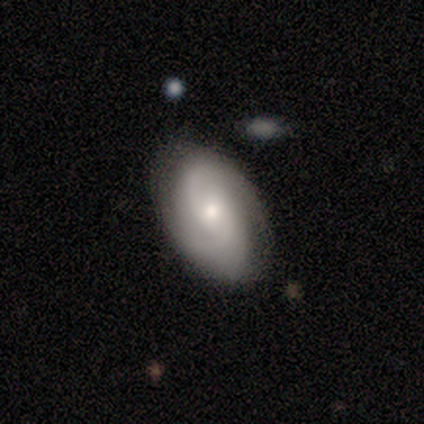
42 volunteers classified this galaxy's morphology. featured or disk 83%, smooth 10%, star or artifact 7%. Down the decision tree: edge-on disk — no (91%); bar — no (69%); spiral arms — yes (97%); spiral arm count — 2 (74%); spiral winding — tight (42%, tied with medium); bulge size — moderate (47%); merging — none (77%).